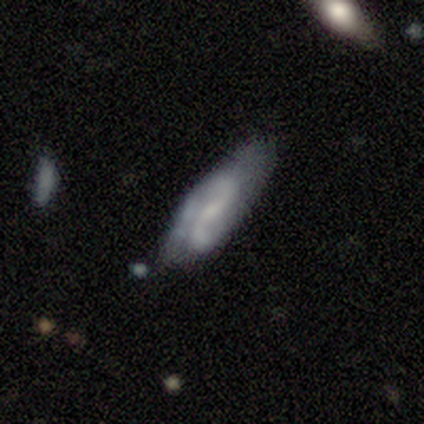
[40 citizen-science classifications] Q: Smooth or featured?
A: featured or disk (60%); runner-up: smooth (32%)
Q: Edge-on disk?
A: no (96%); runner-up: yes (4%)
Q: Bar?
A: no (43%); runner-up: weak (35%)
Q: Spiral arms?
A: yes (91%); runner-up: no (9%)
Q: Spiral winding?
A: loose (71%); runner-up: tight (19%)
Q: Spiral arm count?
A: 2 (100%)
Q: Bulge size?
A: small (52%); runner-up: none (39%)
Q: Merging?
A: none (65%); runner-up: minor disturbance (27%)